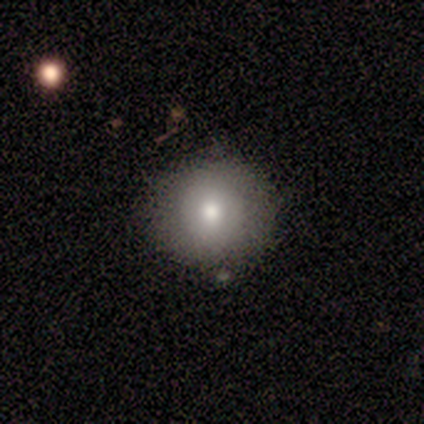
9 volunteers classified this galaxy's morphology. Smooth or featured? smooth (67%)
How rounded? round (83%)
Merging? none (100%)